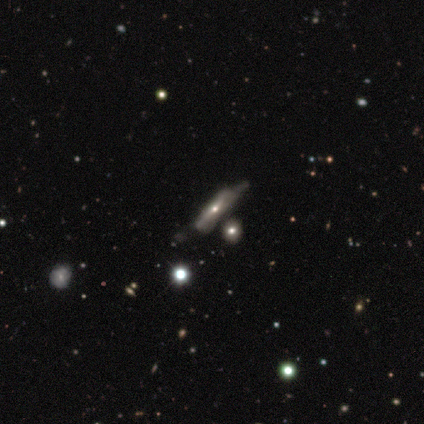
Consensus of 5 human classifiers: Volunteers were most divided on "smooth or featured": smooth: 60%, featured or disk: 40%, star or artifact: 0%. Remaining: how rounded — cigar-shaped (100%); merging — minor disturbance (40%).